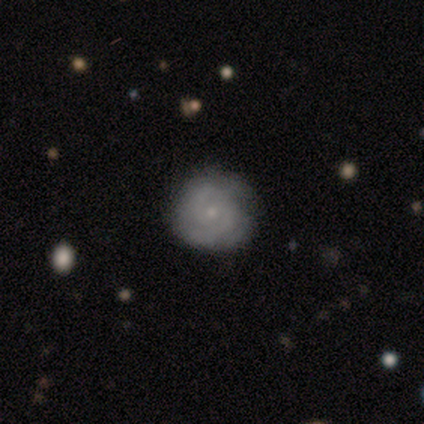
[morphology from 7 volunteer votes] This appears to be a featured or disk galaxy (71%) with no bar (60%), 2 (40%, tied with can't tell) tight (60%) spiral arms (100%) and a small central bulge (100%). Merging: none (100%).